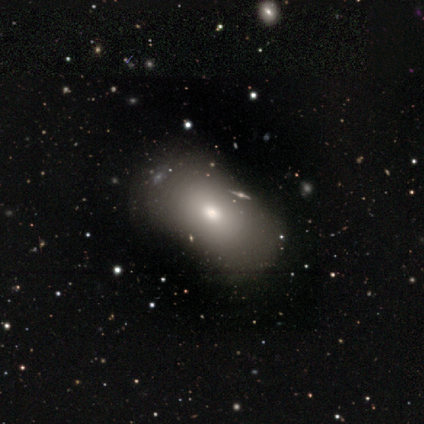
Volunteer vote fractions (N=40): Smooth or featured? 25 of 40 (62%) said smooth. How rounded? 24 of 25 (96%) said in between. Merging? 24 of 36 (67%) said none.